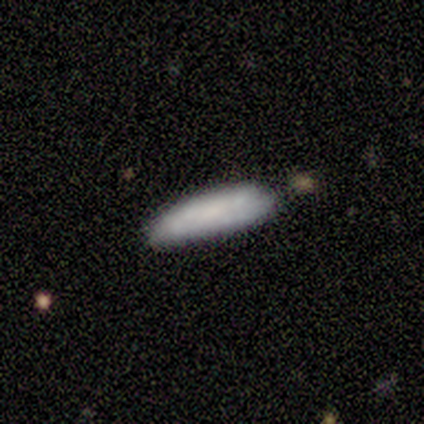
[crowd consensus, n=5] Overall: smooth (80%). How rounded: in between (75%). Merging: none (60%; minor disturbance 40%).